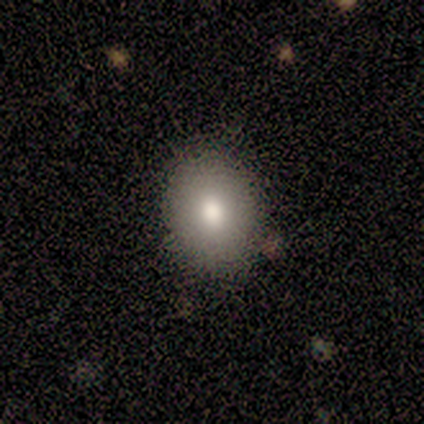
Q: Smooth or featured?
A: smooth (40%); tied with: star or artifact (40%)
Q: How rounded?
A: round (50%); tied with: in between (50%)
Q: Merging?
A: none (100%)